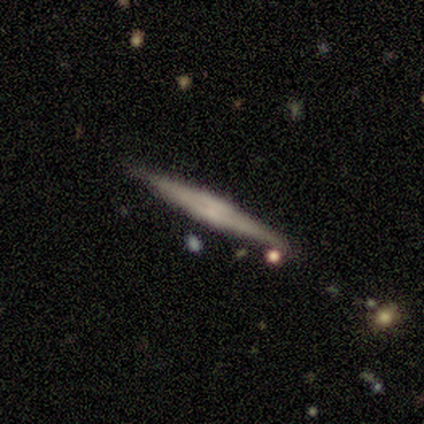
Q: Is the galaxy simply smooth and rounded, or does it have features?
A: smooth — 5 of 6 (83%).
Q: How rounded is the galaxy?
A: cigar-shaped — 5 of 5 (100%).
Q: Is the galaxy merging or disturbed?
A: none — 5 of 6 (83%).